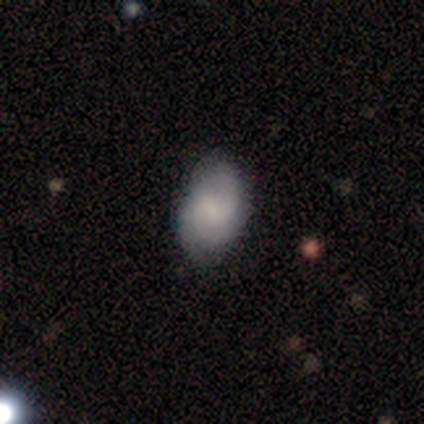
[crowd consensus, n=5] A featured or disk galaxy (60%) with no bar (67%), 2 (67%) tight (67%) spiral arms (100%) and no central bulge (67%). Merging: none (100%).